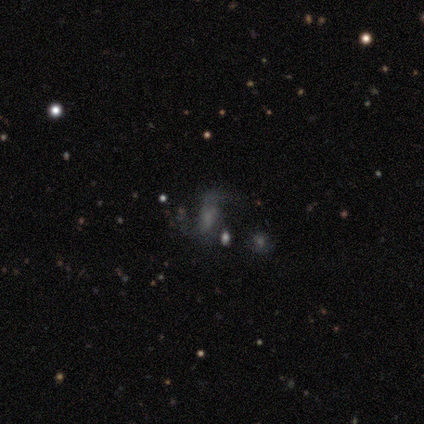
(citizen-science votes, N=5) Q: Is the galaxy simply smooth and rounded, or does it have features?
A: smooth — 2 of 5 (40%, tied with featured or disk).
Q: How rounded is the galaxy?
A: in between — 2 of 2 (100%).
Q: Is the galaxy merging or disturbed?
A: none — 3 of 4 (75%).